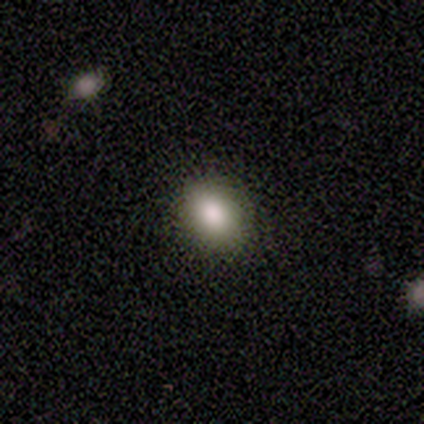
Q: Smooth or featured?
A: smooth (60%); runner-up: featured or disk (40%)
Q: How rounded?
A: in between (67%); runner-up: round (33%)
Q: Merging?
A: none (100%)